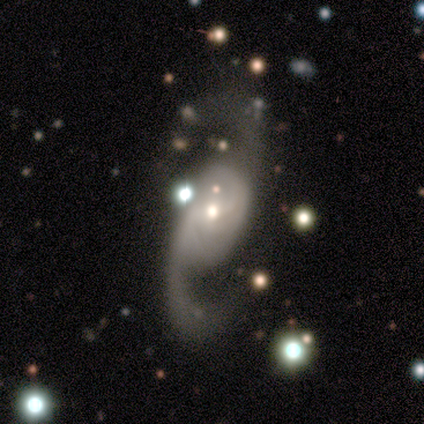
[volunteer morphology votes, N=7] type=featured or disk (100%); edge-on=no (100%); bar=no (57%); spiral arms=yes (100%); winding=medium (71%); arm count=2 (100%); bulge=moderate (57%); merging=none (86%).